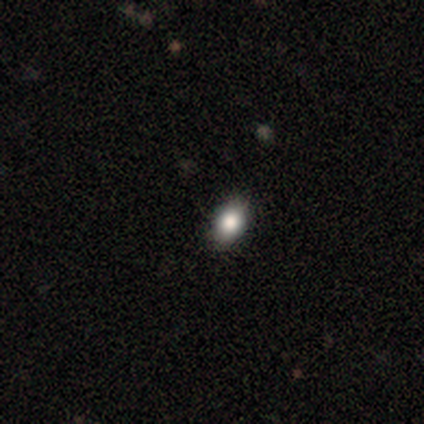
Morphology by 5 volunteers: type=smooth (100%); roundness=round (80%); merging=none (100%).